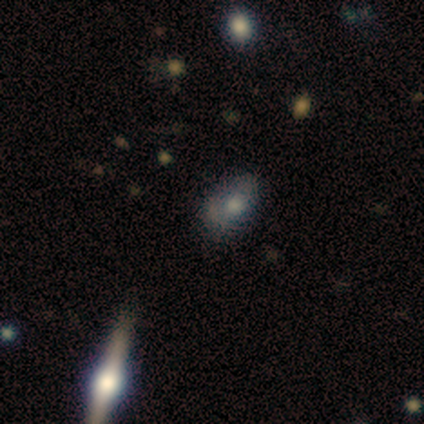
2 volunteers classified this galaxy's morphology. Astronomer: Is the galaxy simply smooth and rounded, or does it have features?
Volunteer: smooth — 50%, tied with featured or disk at 50%.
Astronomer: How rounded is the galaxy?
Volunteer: in between — 100%.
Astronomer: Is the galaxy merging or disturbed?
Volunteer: minor disturbance — 100%.